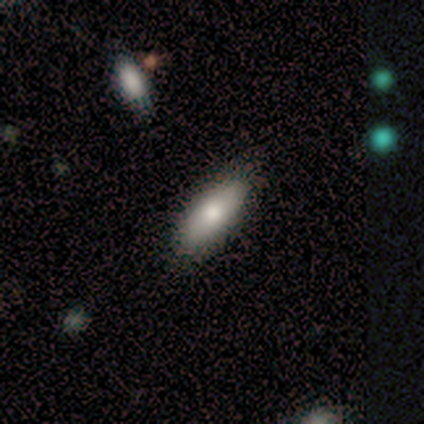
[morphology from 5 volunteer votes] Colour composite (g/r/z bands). It shows a smooth galaxy with no disk features (100%) that is in between round and cigar-shaped (80%). Merging: none (100%).